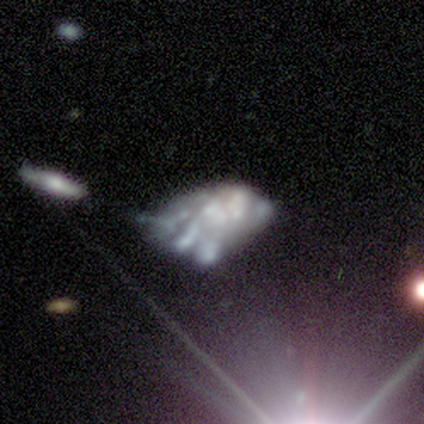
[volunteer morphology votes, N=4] This is likely a featured or disk galaxy (75%). It is clearly not viewed edge-on (100%). Bar: likely no (67%). Spiral arm pattern: clearly no (100%). Central bulge: likely none (67%). Merging: possibly none (50%, tied with minor disturbance).